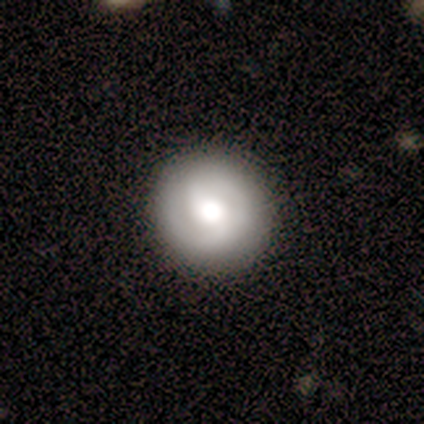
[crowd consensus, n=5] Morphology: type=smooth (60%); roundness=round (100%); merging=none (100%).